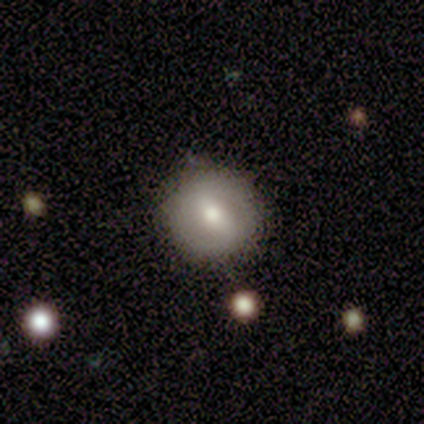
Smooth or featured?
  - smooth: 57% *
  - featured or disk: 43%
  - star or artifact: 0%
How rounded?
  - round: 100% *
  - in between: 0%
  - cigar-shaped: 0%
Merging?
  - none: 86% *
  - minor disturbance: 14%
  - major disturbance: 0%
  - merger: 0%